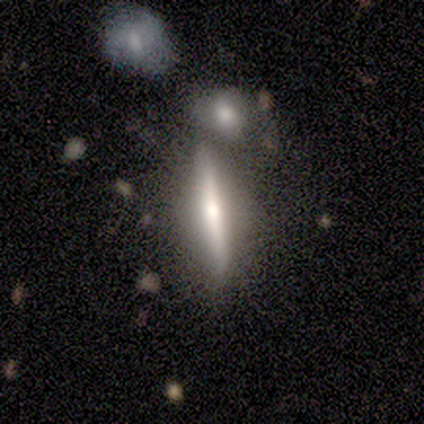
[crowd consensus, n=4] Smooth or featured: smooth — 50% (tied with featured or disk — 50%)
How rounded: cigar-shaped — 100%
Merging: merger — 50% (none — 25%)